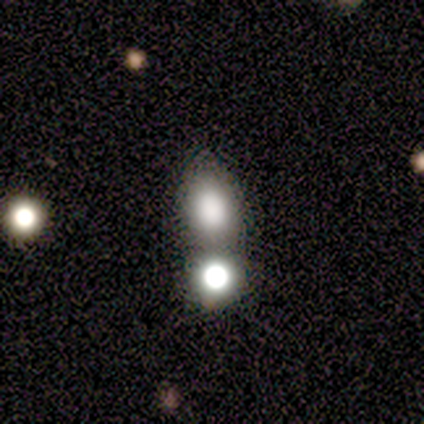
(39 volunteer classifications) Morphology: type=smooth (77%); roundness=in between (63%); merging=merger (40%).